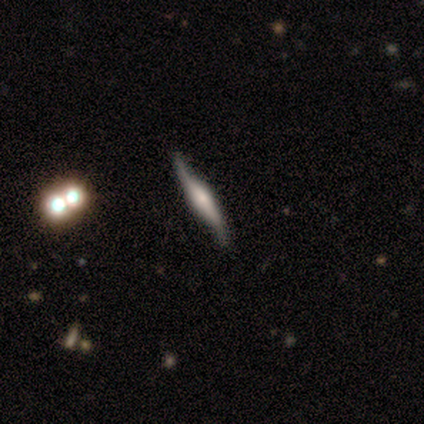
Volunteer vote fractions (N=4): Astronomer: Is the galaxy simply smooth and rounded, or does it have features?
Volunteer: featured or disk — 100%.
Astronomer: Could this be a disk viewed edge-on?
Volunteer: yes — 100%.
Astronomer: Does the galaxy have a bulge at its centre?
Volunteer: rounded — 75%.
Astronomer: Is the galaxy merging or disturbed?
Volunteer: none — 100%.